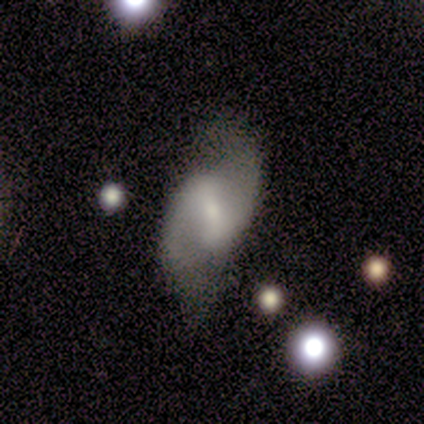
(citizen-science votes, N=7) smooth-or-featured: featured or disk: 57% | smooth: 29% | star or artifact: 14%
  disk-edge-on: no: 100% | yes: 0%
    bar: strong: 50% | weak: 25% | no: 25%
    has-spiral-arms: yes: 100% | no: 0%
      spiral-winding: loose: 100% | tight: 0% | medium: 0%
      spiral-arm-count: 2: 100% | 1: 0% | 3: 0% | 4: 0% | more than 4: 0% | can't tell: 0%
    bulge-size: small: 100% | dominant: 0% | large: 0% | moderate: 0% | none: 0%
  merging: none: 67% | minor disturbance: 33% | major disturbance: 0% | merger: 0%